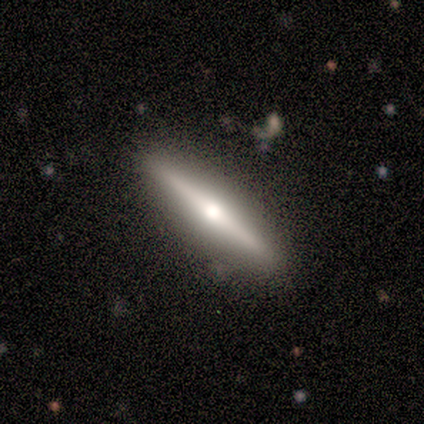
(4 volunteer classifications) smooth-or-featured: featured or disk: 75% | smooth: 25% | star or artifact: 0%
  disk-edge-on: yes: 100% | no: 0%
    edge-on-bulge: rounded: 100% | boxy: 0% | none: 0%
  merging: none: 75% | minor disturbance: 25% | major disturbance: 0% | merger: 0%